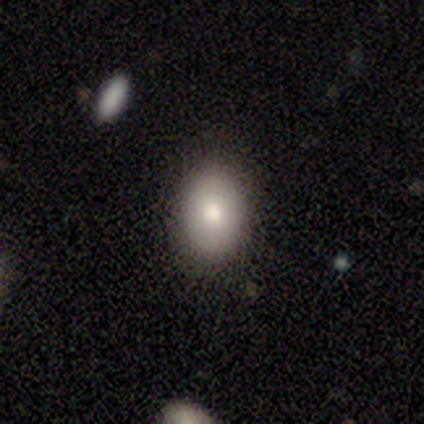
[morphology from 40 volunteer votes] Overall: smooth (85%). How rounded: in between (82%). Merging: none (65%).